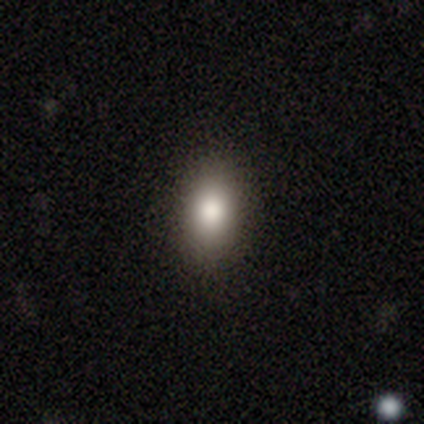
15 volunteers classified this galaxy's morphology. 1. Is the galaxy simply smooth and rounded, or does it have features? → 87% smooth, 7% featured or disk, 7% star or artifact.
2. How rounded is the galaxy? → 100% in between, 0% round, 0% cigar-shaped.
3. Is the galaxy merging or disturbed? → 86% none, 14% minor disturbance, 0% major disturbance, 0% merger.